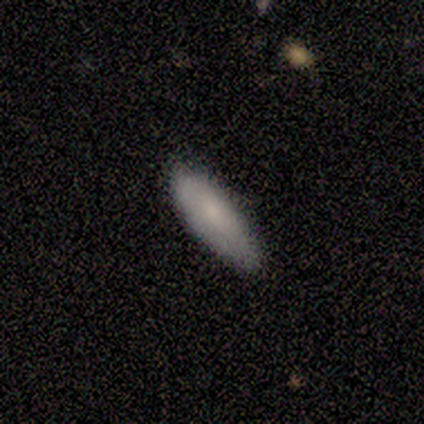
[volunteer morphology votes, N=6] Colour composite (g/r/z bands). It shows a smooth galaxy with no disk features (67%) that is in between round and cigar-shaped (100%). Merging: none (67%).